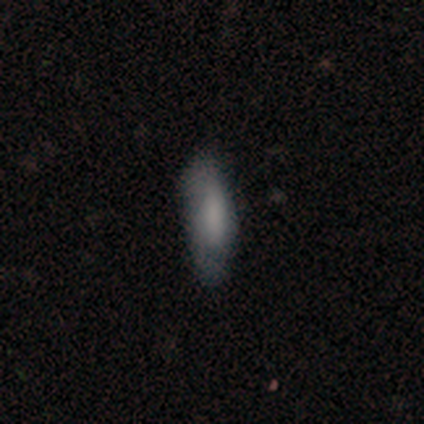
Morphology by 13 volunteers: A smooth galaxy with no disk features (77%) that is in between round and cigar-shaped (50%, tied with cigar-shaped).

Vote fractions:
- Smooth or featured? smooth: 77% / featured or disk: 23% / star or artifact: 0%
- How rounded? in between: 50% (tied) / cigar-shaped: 50% (tied) / round: 0%
- Merging? none: 62% / minor disturbance: 23% / major disturbance: 15% / merger: 0%